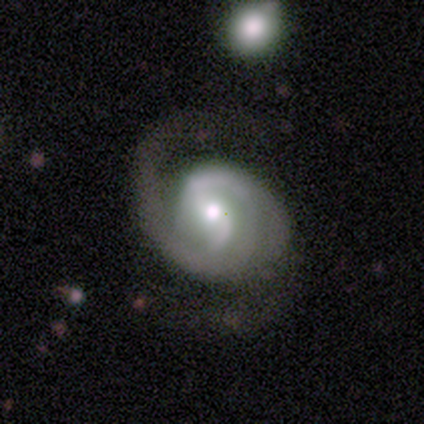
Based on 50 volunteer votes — A featured or disk galaxy (86%) with a weak bar (50%), 2 (77%) medium (67%) spiral arms (93%) and a moderate central bulge (55%).

Vote fractions:
- Smooth or featured? featured or disk: 86% / smooth: 8% / star or artifact: 6%
- Edge-on disk? no: 98% / yes: 2%
- Bar? weak: 50% / no: 38% / strong: 12%
- Spiral arms? yes: 93% / no: 7%
- Spiral winding? medium: 67% / tight: 18% / loose: 15%
- Spiral arm count? 2: 77% / 1: 21% / 3: 3% / 4: 0% / more than 4: 0% / can't tell: 0%
- Bulge size? moderate: 55% / small: 31% / large: 14% / dominant: 0% / none: 0%
- Merging? none: 47% / minor disturbance: 26% / major disturbance: 26% / merger: 2%